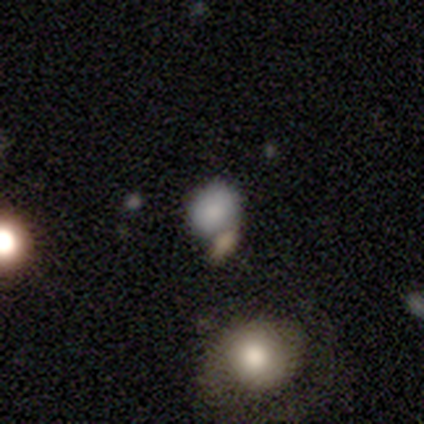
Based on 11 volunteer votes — Smooth or featured? smooth (91%)
How rounded? round (80%)
Merging? none (82%)